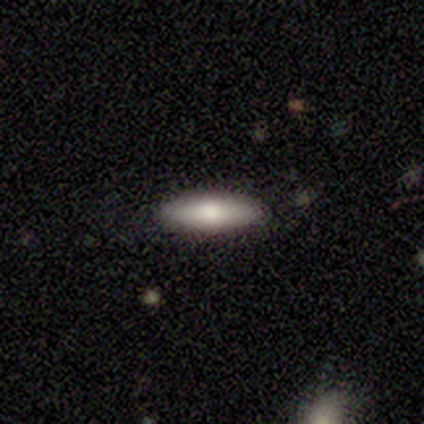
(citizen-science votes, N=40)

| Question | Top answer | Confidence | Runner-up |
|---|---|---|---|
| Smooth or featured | smooth | 72% | featured or disk (20%) |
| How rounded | in between | 52% | cigar-shaped (48%) |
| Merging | none | 89% | minor disturbance (8%) |